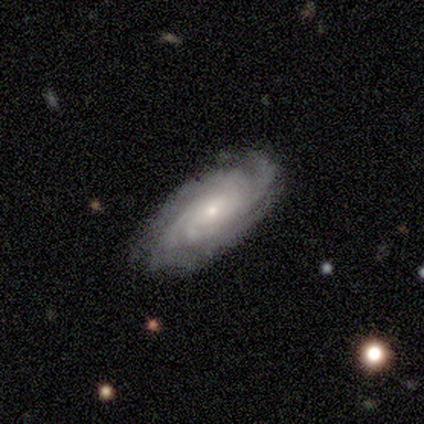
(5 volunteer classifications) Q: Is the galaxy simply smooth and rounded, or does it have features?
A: featured or disk — 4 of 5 (80%).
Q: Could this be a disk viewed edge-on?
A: no — 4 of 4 (100%).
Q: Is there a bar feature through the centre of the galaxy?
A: no — 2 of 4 (50%).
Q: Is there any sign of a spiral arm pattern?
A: yes — 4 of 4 (100%).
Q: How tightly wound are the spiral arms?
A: tight — 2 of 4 (50%, tied with medium).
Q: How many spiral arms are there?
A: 4 — 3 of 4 (75%).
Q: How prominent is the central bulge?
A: small — 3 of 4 (75%).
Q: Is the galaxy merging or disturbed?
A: none — 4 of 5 (80%).